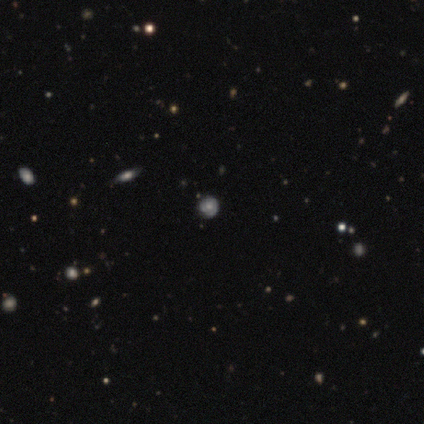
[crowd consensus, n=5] smooth_or_featured: smooth (p=0.80) [alt: star or artifact p=0.20]
how_rounded: round (p=1.00)
merging: none (p=1.00)